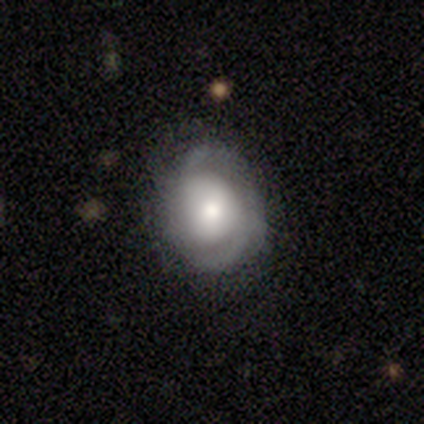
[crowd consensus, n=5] Q: Smooth or featured?
A: featured or disk (100%)
Q: Edge-on disk?
A: no (100%)
Q: Bar?
A: no (100%)
Q: Spiral arms?
A: yes (100%)
Q: Spiral winding?
A: medium (60%); runner-up: tight (40%)
Q: Spiral arm count?
A: 2 (100%)
Q: Bulge size?
A: small (60%); runner-up: dominant (20%)
Q: Merging?
A: none (80%); runner-up: minor disturbance (20%)